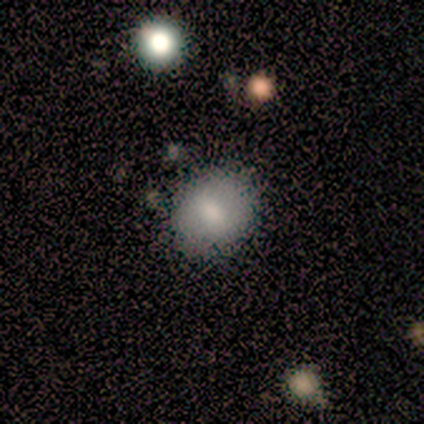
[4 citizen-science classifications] A smooth galaxy with no disk features (100%) that is round (75%). Merging: none (75%).